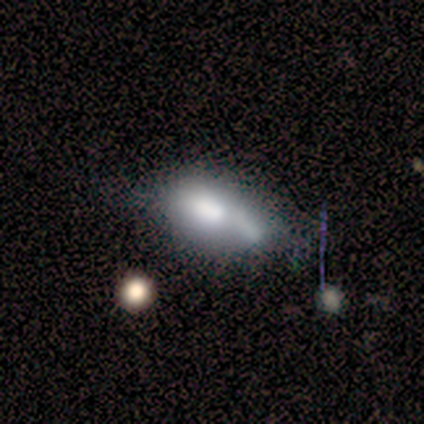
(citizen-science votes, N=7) Smooth or featured? smooth (86%)
How rounded? in between (83%)
Merging? none (29%, tied with minor disturbance and merger)